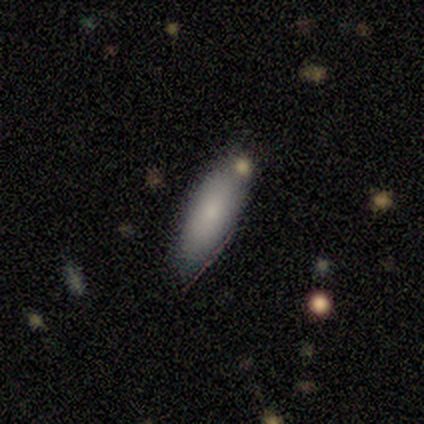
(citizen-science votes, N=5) Smooth or featured?
  - smooth: 60% *
  - featured or disk: 40%
  - star or artifact: 0%
How rounded?
  - in between: 67% *
  - cigar-shaped: 33%
  - round: 0%
Merging?
  - minor disturbance: 60% *
  - none: 40%
  - major disturbance: 0%
  - merger: 0%